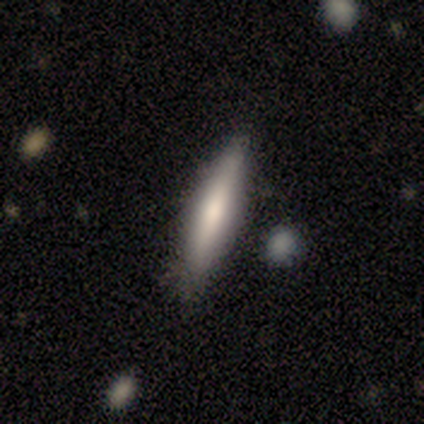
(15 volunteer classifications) This is possibly a smooth galaxy (53%). How rounded: likely cigar-shaped (62%). Merging: likely none (73%).